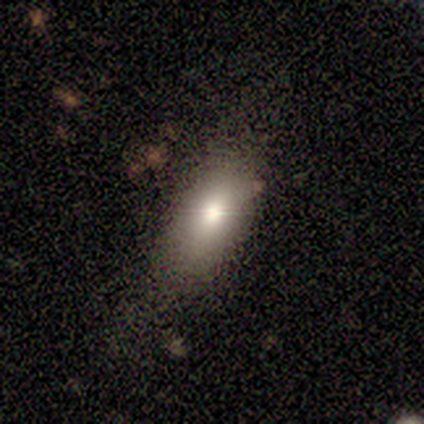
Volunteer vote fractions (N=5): This appears to be a smooth galaxy with no disk features (40%, tied with featured or disk) that is in between round and cigar-shaped (100%). Merging: none (100%).